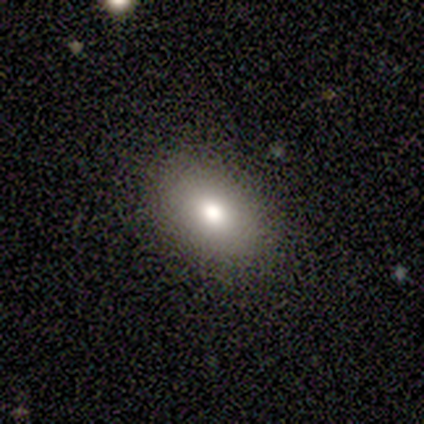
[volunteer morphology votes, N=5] smooth_or_featured: smooth (p=0.80) [alt: featured or disk p=0.20]
how_rounded: in between (p=1.00)
merging: none (p=1.00)